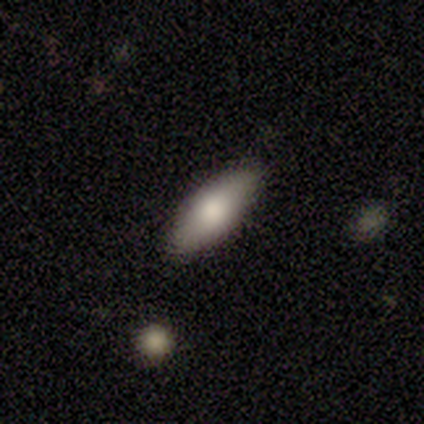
Smooth or featured? 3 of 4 (75%) said smooth. How rounded? 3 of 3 (100%) said in between. Merging? 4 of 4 (100%) said none.